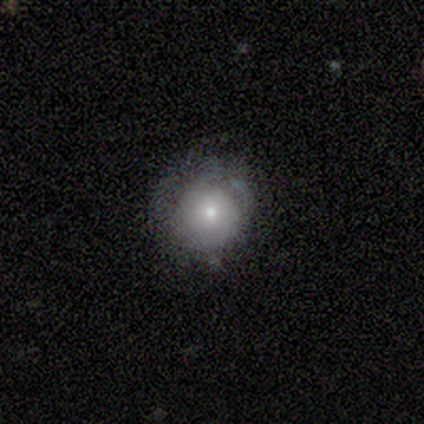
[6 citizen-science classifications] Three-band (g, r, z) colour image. It shows a smooth galaxy with no disk features (83%) that is round (100%). Merging: none (83%).